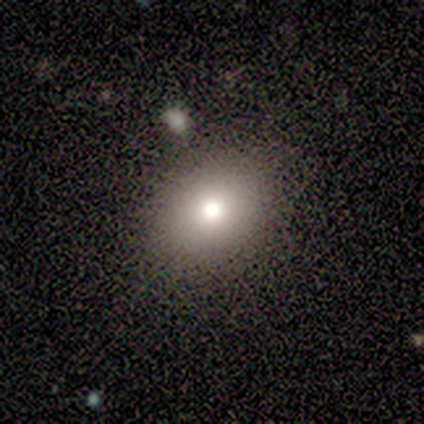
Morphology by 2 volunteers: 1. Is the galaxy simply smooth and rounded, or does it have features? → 50% smooth (tied), 50% featured or disk (tied), 0% star or artifact.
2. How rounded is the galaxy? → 100% round, 0% in between, 0% cigar-shaped.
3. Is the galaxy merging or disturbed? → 50% none (tied), 50% minor disturbance (tied), 0% major disturbance, 0% merger.